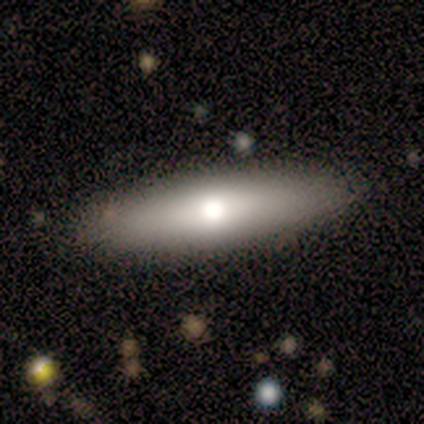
A featured or disk galaxy (100%) with no bar (75%), no spiral arms (75%) and a moderate central bulge (100%).

Vote fractions:
- Smooth or featured? featured or disk: 100% / smooth: 0% / star or artifact: 0%
- Edge-on disk? no: 80% / yes: 20%
- Bar? no: 75% / weak: 25% / strong: 0%
- Spiral arms? no: 75% / yes: 25%
- Bulge size? moderate: 100% / dominant: 0% / large: 0% / small: 0% / none: 0%
- Merging? none: 80% / minor disturbance: 20% / major disturbance: 0% / merger: 0%